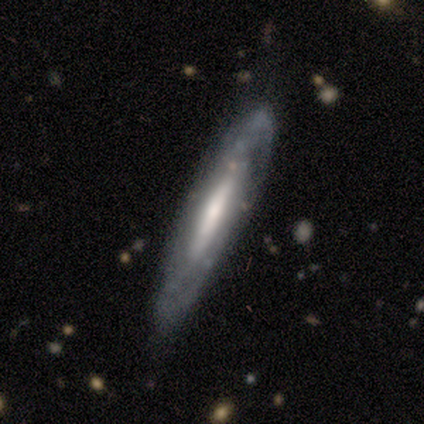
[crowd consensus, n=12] Smooth or featured? 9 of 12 (75%) said featured or disk. Edge-on disk? 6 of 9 (67%) said no. Bar? 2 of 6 (33%, tied with weak and no) said strong. Spiral arms? 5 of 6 (83%) said yes. Spiral winding? 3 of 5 (60%) said tight. Spiral arm count? 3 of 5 (60%) said can't tell. Bulge size? 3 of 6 (50%) said moderate. Merging? 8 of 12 (67%) said none.